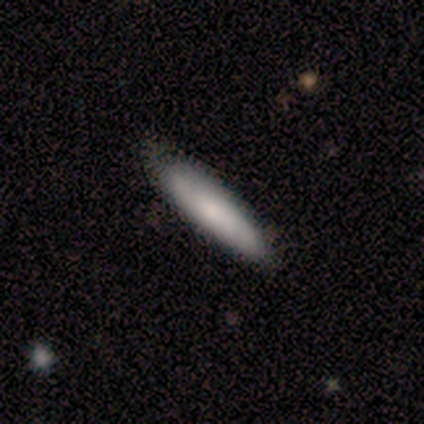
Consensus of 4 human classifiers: Smooth or featured?
  - smooth: 75% *
  - star or artifact: 25%
  - featured or disk: 0%
How rounded?
  - cigar-shaped: 100% *
  - round: 0%
  - in between: 0%
Merging?
  - none: 100% *
  - minor disturbance: 0%
  - major disturbance: 0%
  - merger: 0%